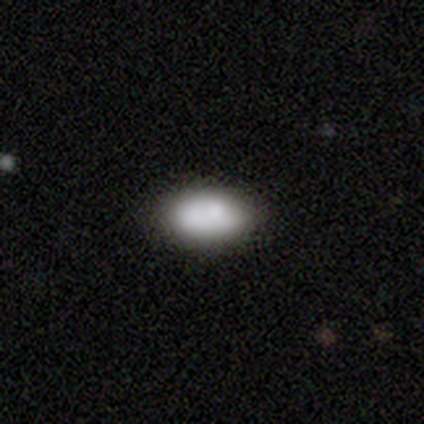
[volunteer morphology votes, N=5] Q: Smooth or featured?
A: smooth (60%); runner-up: featured or disk (20%)
Q: How rounded?
A: in between (100%)
Q: Merging?
A: none (75%); runner-up: minor disturbance (25%)